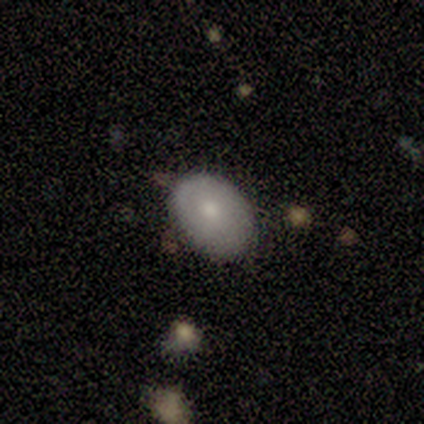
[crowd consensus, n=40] smooth-or-featured: smooth: 62% | featured or disk: 35% | star or artifact: 2%
  how-rounded: in between: 64% | round: 32% | cigar-shaped: 4%
  merging: none: 69% | minor disturbance: 28% | merger: 3% | major disturbance: 0%